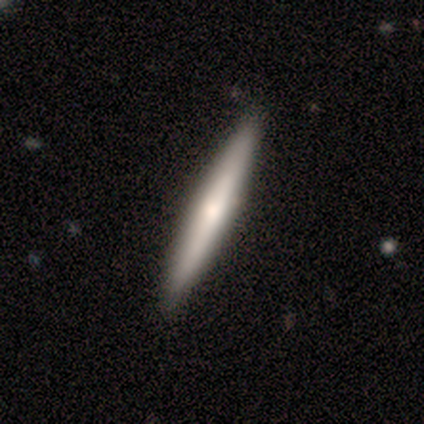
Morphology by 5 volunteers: Smooth or featured: smooth — 100%
How rounded: cigar-shaped — 100%
Merging: none — 100%